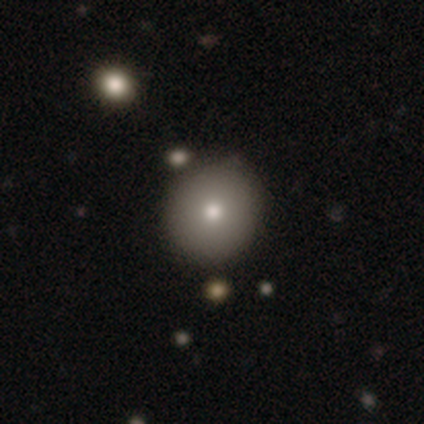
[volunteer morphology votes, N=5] Smooth or featured: smooth — 100%
How rounded: round — 100%
Merging: none — 100%